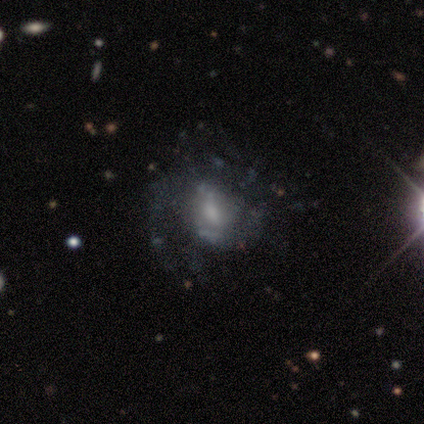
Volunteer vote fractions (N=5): Morphology: type=smooth (80%); roundness=round (75%); merging=none (100%).